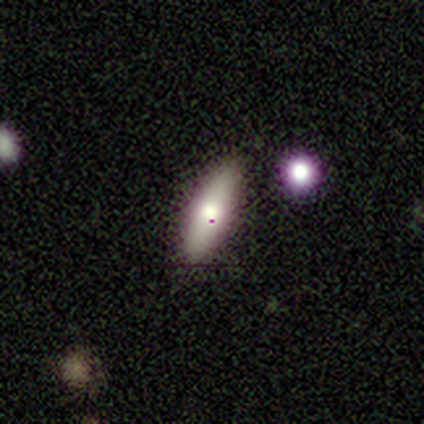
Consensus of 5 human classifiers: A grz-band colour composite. It shows a smooth galaxy with no disk features (60%) that is cigar-shaped (100%). Merging: none (100%).